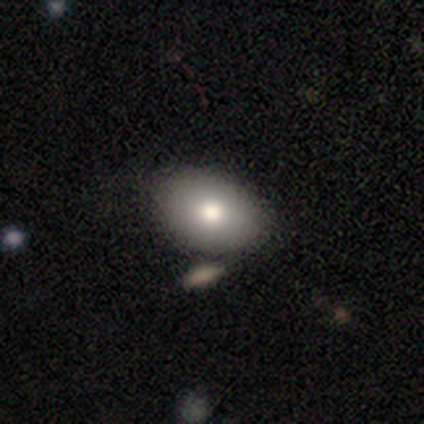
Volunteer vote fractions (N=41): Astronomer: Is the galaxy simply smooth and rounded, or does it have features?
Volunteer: smooth — 78%.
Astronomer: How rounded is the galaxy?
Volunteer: in between — 78%.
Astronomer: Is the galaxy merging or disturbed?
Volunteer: none — 38% (runner-up: merger, 23%).